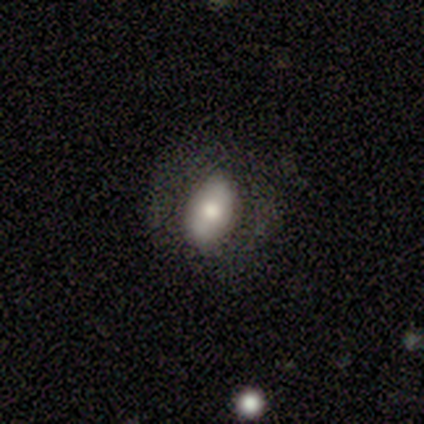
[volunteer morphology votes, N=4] This appears to be a smooth galaxy with no disk features (75%) that is in between round and cigar-shaped (100%). Merging: none (50%).